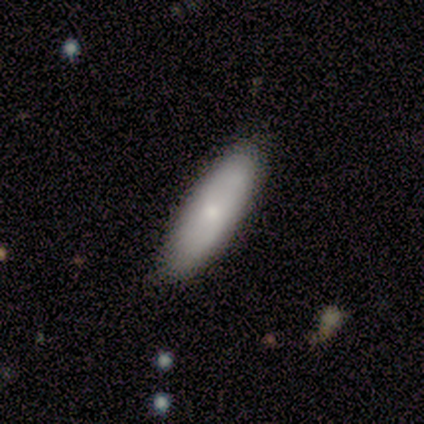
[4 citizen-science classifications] Q: Smooth or featured?
A: smooth (75%); runner-up: featured or disk (25%)
Q: How rounded?
A: in between (67%); runner-up: cigar-shaped (33%)
Q: Merging?
A: none (75%); runner-up: minor disturbance (25%)